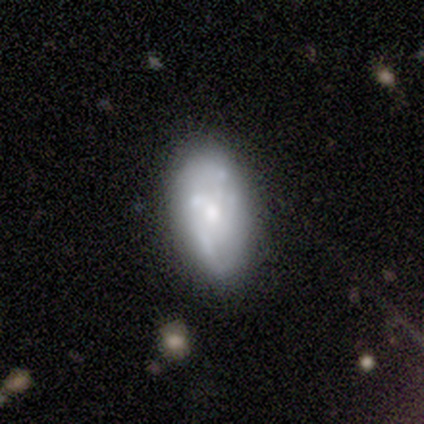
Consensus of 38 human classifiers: Smooth or featured: featured or disk — 66% (smooth — 29%)
Edge-on disk: no — 92% (yes — 8%)
Bar: no — 87% (weak — 9%)
Spiral arms: no — 74% (yes — 26%)
Bulge size: moderate — 48% (small — 30%)
Merging: none — 67% (minor disturbance — 14%)